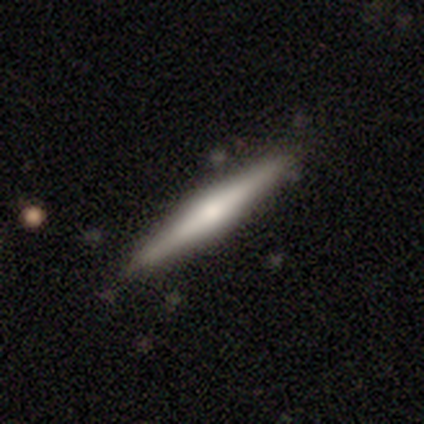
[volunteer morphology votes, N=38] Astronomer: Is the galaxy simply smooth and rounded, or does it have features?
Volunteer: featured or disk — 55% (runner-up: smooth, 39%).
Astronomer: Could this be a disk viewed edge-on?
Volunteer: yes — 100%.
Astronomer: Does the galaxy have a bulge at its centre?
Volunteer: rounded — 81%.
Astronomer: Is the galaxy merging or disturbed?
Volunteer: none — 81%.